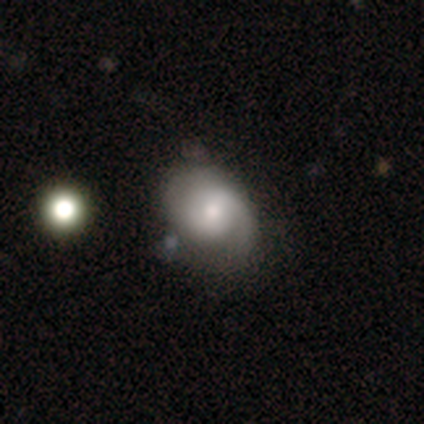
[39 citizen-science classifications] Q: Smooth or featured?
A: smooth (54%); runner-up: featured or disk (44%)
Q: How rounded?
A: in between (62%); runner-up: round (38%)
Q: Merging?
A: none (61%); runner-up: minor disturbance (34%)